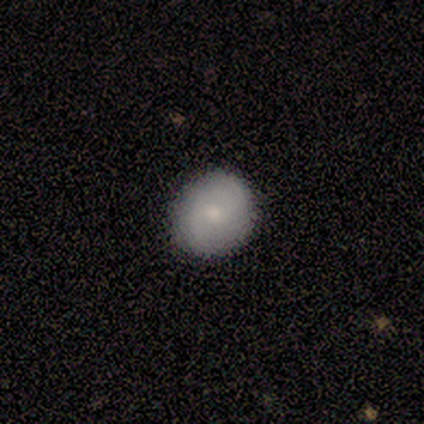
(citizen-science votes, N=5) Morphology: type=smooth (60%); roundness=round (100%); merging=none (100%).